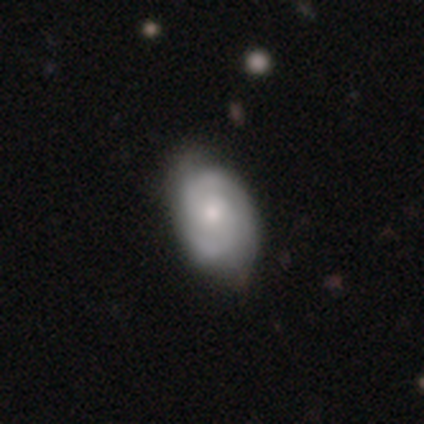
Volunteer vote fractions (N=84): A featured or disk galaxy (67%) with no bar (79%), 2 (76%) tight (55%) spiral arms (88%) and a moderate central bulge (50%).

Vote fractions:
- Smooth or featured? featured or disk: 67% / smooth: 29% / star or artifact: 5%
- Edge-on disk? no: 100% / yes: 0%
- Bar? no: 79% / weak: 18% / strong: 4%
- Spiral arms? yes: 88% / no: 12%
- Spiral winding? tight: 55% / medium: 33% / loose: 12%
- Spiral arm count? 2: 76% / 3: 12% / can't tell: 12% / 1: 0% / 4: 0% / more than 4: 0%
- Bulge size? moderate: 50% / small: 48% / large: 2% / dominant: 0% / none: 0%
- Merging? none: 66% / minor disturbance: 29% / major disturbance: 5% / merger: 0%